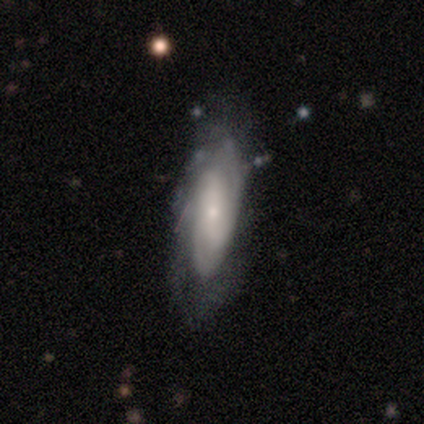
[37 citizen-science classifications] Morphology: type=featured or disk (76%); edge-on=no (86%); bar=no (50%); spiral arms=yes (83%); winding=tight (55%); arm count=can't tell (45%); bulge=small (83%); merging=none (71%).